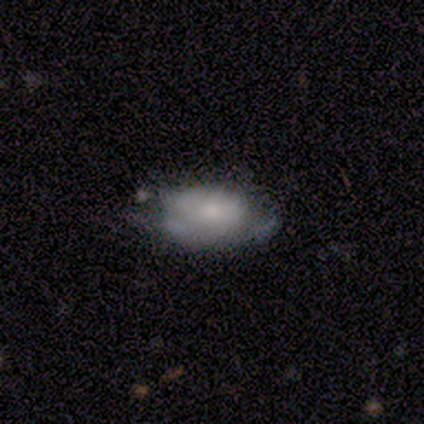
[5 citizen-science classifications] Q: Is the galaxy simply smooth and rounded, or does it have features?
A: featured or disk — 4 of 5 (80%).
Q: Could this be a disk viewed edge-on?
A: no — 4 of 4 (100%).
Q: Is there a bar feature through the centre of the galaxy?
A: no — 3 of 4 (75%).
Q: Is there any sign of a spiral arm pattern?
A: no — 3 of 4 (75%).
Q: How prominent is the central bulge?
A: moderate — 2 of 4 (50%, tied with none).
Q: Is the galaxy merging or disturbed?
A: minor disturbance — 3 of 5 (60%).